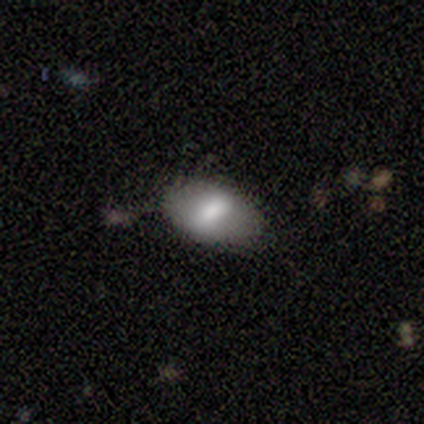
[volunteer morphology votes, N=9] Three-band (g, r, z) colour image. It shows a smooth galaxy with no disk features (67%) that is in between round and cigar-shaped (100%). Merging: none (62%).